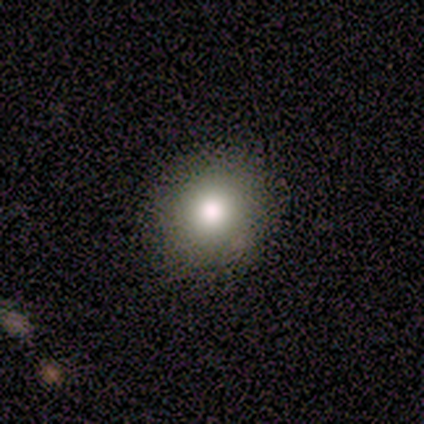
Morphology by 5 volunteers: smooth_or_featured: smooth (p=0.80) [alt: star or artifact p=0.20]
how_rounded: round (p=0.75) [alt: cigar-shaped p=0.25]
merging: none (p=0.75) [alt: minor disturbance p=0.25]